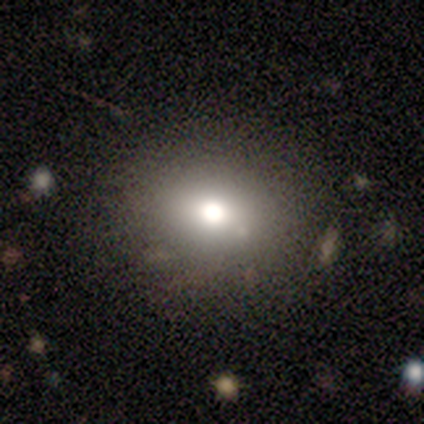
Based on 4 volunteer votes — Volunteers were most divided on "smooth or featured" (2-way tie): smooth: 50%, featured or disk: 50%, star or artifact: 0%; "merging" (2-way tie): none: 50%, merger: 50%, minor disturbance: 0%, major disturbance: 0%. More confident: how rounded — round (100%).